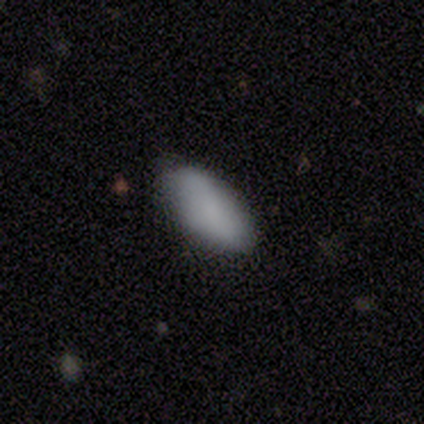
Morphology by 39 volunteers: This appears to be a smooth galaxy with no disk features (79%) that is in between round and cigar-shaped (94%). Merging: none (69%).